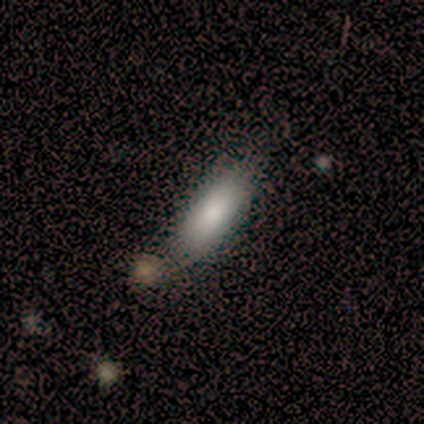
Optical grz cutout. It shows a smooth galaxy with no disk features (100%) that is in between round and cigar-shaped (80%). Merging: none (80%).